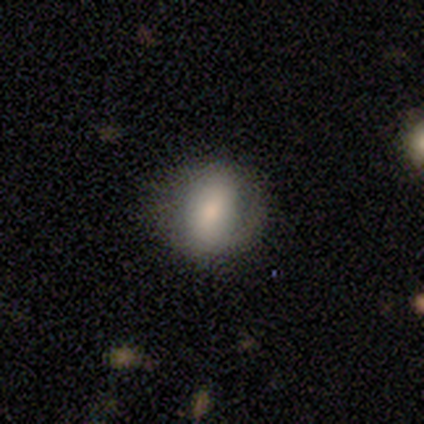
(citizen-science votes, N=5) smooth_or_featured: smooth (p=0.80) [alt: featured or disk p=0.20]
how_rounded: round (p=0.75) [alt: in between p=0.25]
merging: none (p=0.60) [alt: minor disturbance p=0.20]